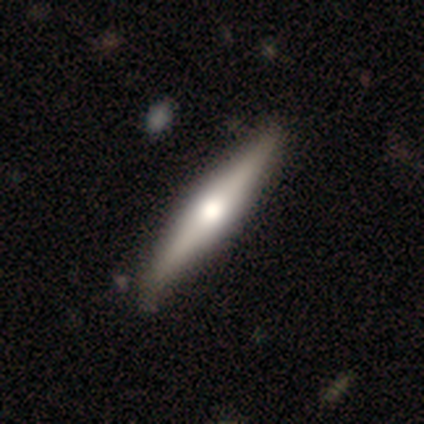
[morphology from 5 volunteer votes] This appears to be a smooth galaxy with no disk features (40%, tied with featured or disk) that is cigar-shaped (100%). Merging: none (75%).